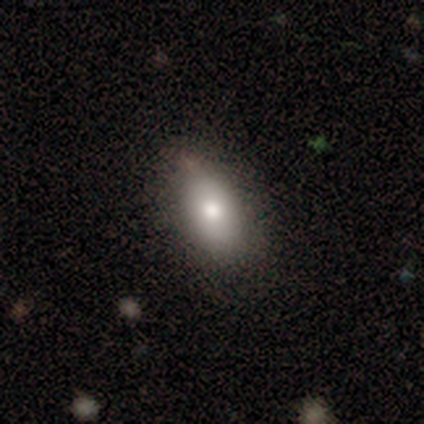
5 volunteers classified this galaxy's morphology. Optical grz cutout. It shows a smooth galaxy with no disk features (80%) that is in between round and cigar-shaped (100%). Merging: none (80%).